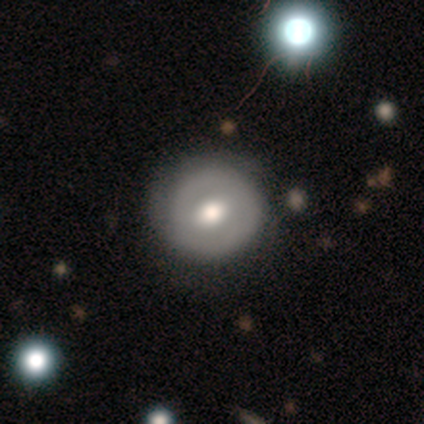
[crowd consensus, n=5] Overall: featured or disk (80%). Edge-on disk: no (100%). Bar: weak (75%). Spiral arms: yes (50%, tied with no). Spiral arm count: 1 (50%, tied with 2). Spiral winding: tight (50%, tied with medium). Bulge size: moderate (75%). Merging: none (80%).